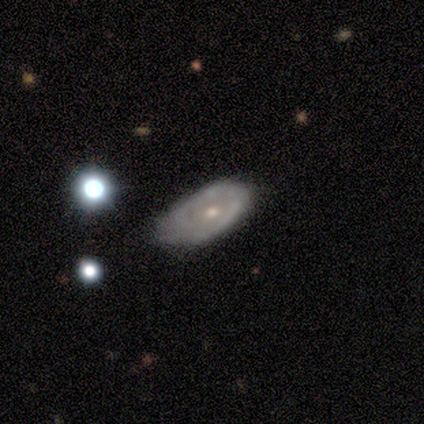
Smooth or featured? 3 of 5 (60%) said featured or disk. Edge-on disk? 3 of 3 (100%) said no. Bar? 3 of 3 (100%) said no. Spiral arms? 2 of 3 (67%) said yes. Spiral winding? 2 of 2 (100%) said tight. Spiral arm count? 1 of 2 (50%, tied with can't tell) said 2. Bulge size? 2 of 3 (67%) said moderate. Merging? 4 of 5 (80%) said minor disturbance.